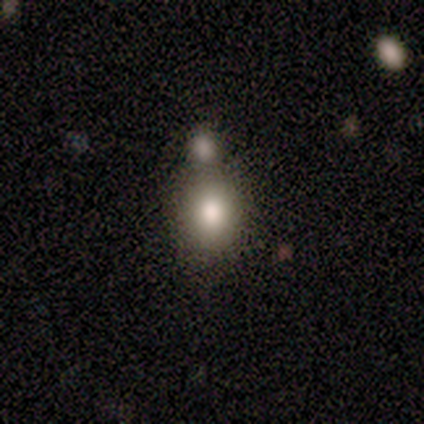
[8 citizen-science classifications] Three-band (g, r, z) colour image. It shows a smooth galaxy with no disk features (100%) that is round (62%). Merging: none (50%).